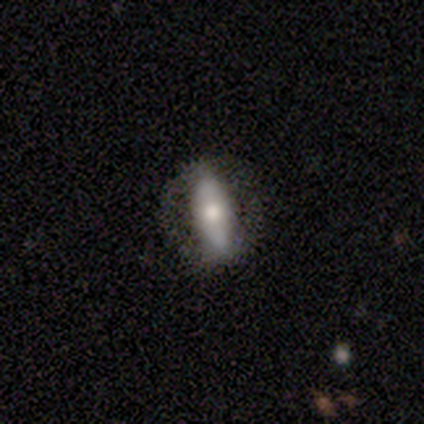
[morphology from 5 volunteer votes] Volunteers were most divided on "smooth or featured": smooth: 60%, featured or disk: 40%, star or artifact: 0%. More confident: how rounded — cigar-shaped (100%); merging — none (100%).